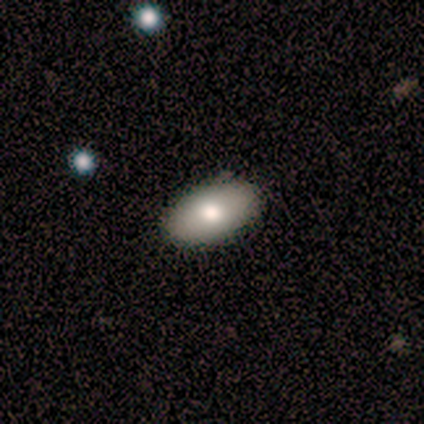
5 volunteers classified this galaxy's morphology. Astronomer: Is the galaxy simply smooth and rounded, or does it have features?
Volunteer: smooth — 100%.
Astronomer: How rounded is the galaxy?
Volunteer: in between — 100%.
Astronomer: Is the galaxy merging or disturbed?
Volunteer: none — 100%.